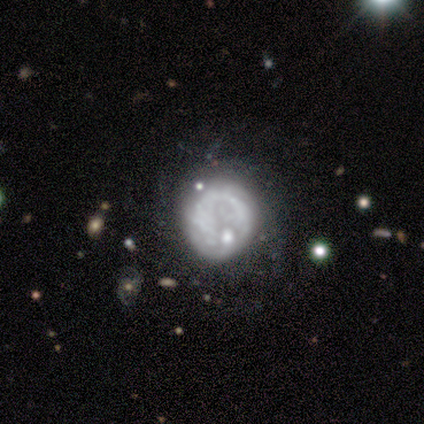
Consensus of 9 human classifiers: Q: Smooth or featured?
A: featured or disk (67%); runner-up: smooth (33%)
Q: Edge-on disk?
A: no (100%)
Q: Bar?
A: no (100%)
Q: Spiral arms?
A: no (67%); runner-up: yes (33%)
Q: Bulge size?
A: none (50%); runner-up: dominant (17%)
Q: Merging?
A: none (33%); tied with: minor disturbance (33%)